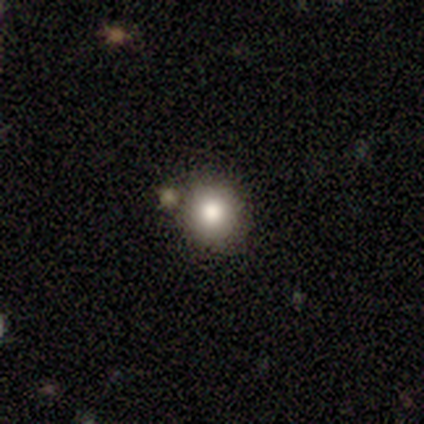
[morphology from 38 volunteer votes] Smooth or featured: smooth — 89% (featured or disk — 5%)
How rounded: round — 97% (in between — 3%)
Merging: none — 83% (minor disturbance — 11%)